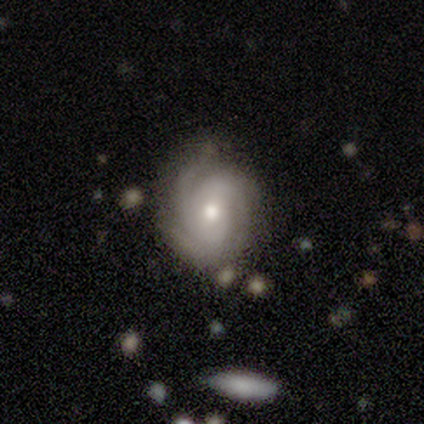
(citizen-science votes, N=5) Smooth or featured? 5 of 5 (100%) said featured or disk. Edge-on disk? 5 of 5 (100%) said no. Bar? 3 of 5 (60%) said no. Spiral arms? 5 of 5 (100%) said yes. Spiral winding? 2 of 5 (40%, tied with loose) said tight. Spiral arm count? 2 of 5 (40%, tied with can't tell) said 3. Bulge size? 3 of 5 (60%) said small. Merging? 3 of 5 (60%) said none.